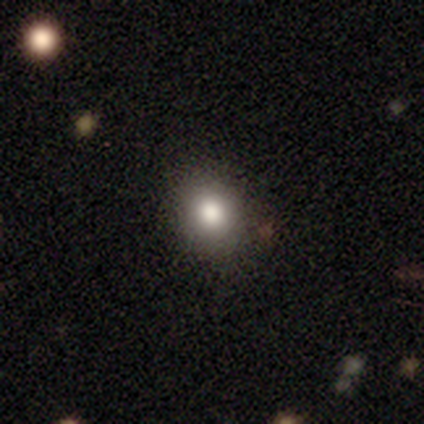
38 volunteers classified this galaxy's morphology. type=smooth (82%); roundness=round (71%); merging=none (85%).